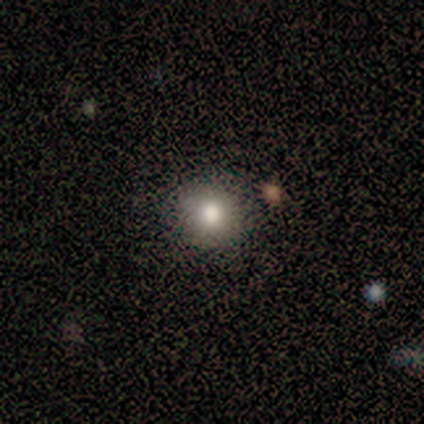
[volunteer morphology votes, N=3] This appears to be a star or artifact, not a galaxy (67%).